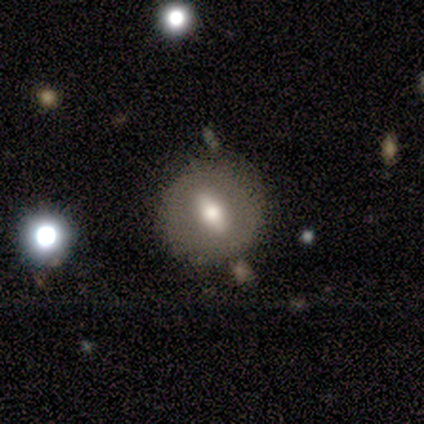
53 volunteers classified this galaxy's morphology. type=featured or disk (57%); edge-on=no (77%); bar=strong (74%); spiral arms=no (96%); bulge=moderate (65%); merging=none (81%).